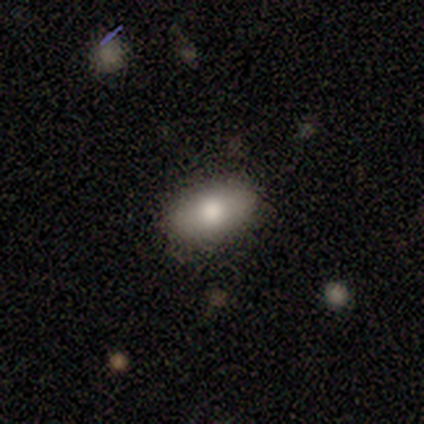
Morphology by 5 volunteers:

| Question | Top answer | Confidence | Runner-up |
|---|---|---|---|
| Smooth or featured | smooth | 100% | — |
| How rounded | in between | 100% | — |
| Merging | none | 80% | minor disturbance (20%) |